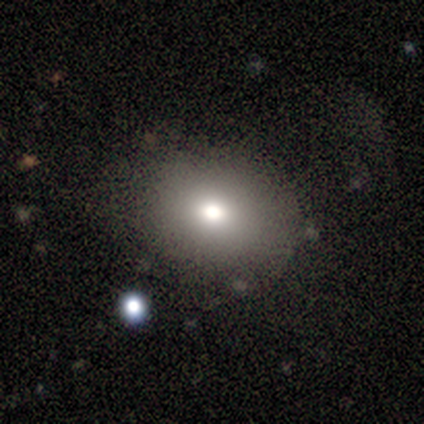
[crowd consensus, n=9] Morphology: type=smooth (100%); roundness=in between (56%); merging=none (67%).